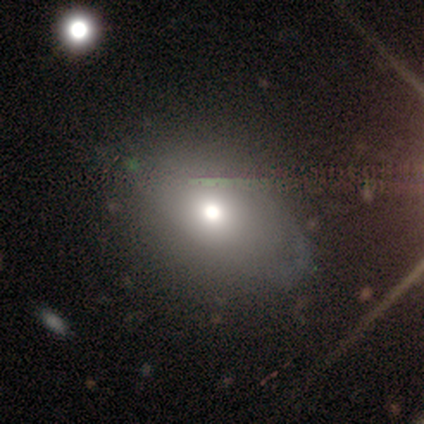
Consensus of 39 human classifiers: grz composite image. It shows a smooth galaxy with no disk features (67%) that is in between round and cigar-shaped (65%). Merging: none (29%).